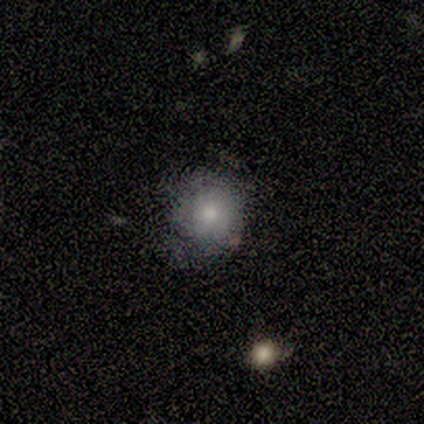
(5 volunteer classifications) A smooth galaxy with no disk features (80%) that is round (75%). Merging: none (50%, tied with minor disturbance).